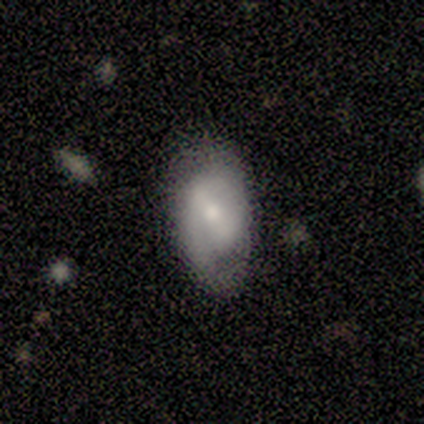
Volunteers were most divided on "smooth or featured" (2-way tie): smooth: 50%, featured or disk: 50%, star or artifact: 0%. More confident: how rounded — in between (100%); merging — none (75%).